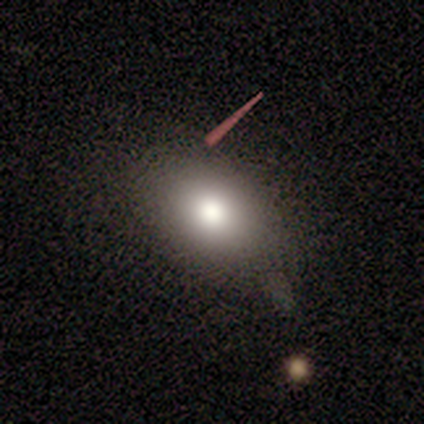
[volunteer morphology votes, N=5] Overall: smooth (100%). How rounded: in between (80%). Merging: none (80%).